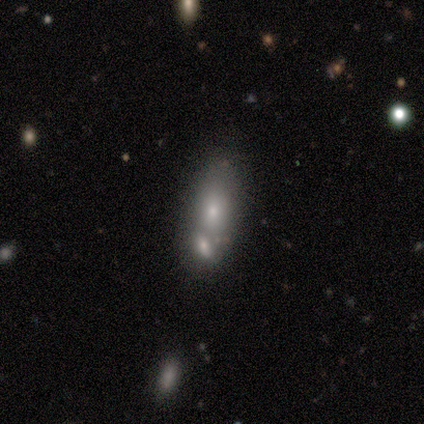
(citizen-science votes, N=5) Smooth or featured: smooth — 60% (featured or disk — 20%)
How rounded: in between — 67% (cigar-shaped — 33%)
Merging: merger — 75% (none — 25%)